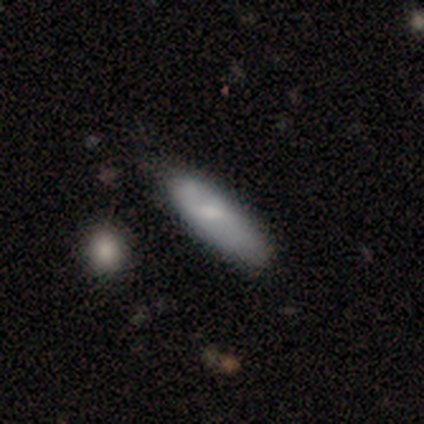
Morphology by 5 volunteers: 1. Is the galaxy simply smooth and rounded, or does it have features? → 60% smooth, 40% featured or disk, 0% star or artifact.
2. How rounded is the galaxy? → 67% in between, 33% cigar-shaped, 0% round.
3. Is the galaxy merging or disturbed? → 80% none, 20% minor disturbance, 0% major disturbance, 0% merger.